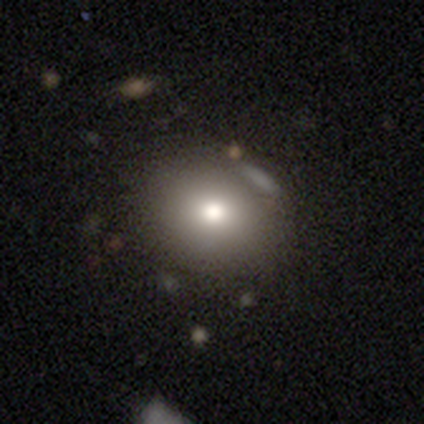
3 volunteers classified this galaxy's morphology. Smooth or featured? 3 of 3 (100%) said smooth. How rounded? 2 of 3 (67%) said round. Merging? 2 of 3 (67%) said major disturbance.